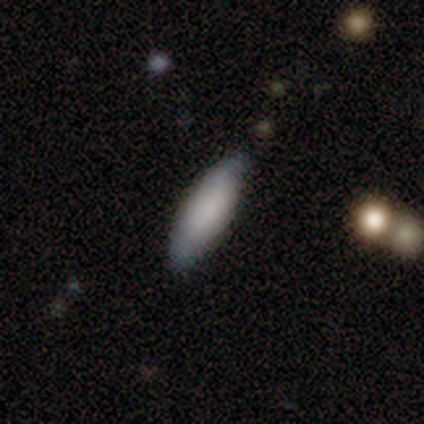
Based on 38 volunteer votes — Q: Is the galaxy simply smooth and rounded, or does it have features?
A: smooth — 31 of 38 (82%).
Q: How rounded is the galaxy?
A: cigar-shaped — 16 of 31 (52%).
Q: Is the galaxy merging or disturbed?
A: none — 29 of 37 (78%).